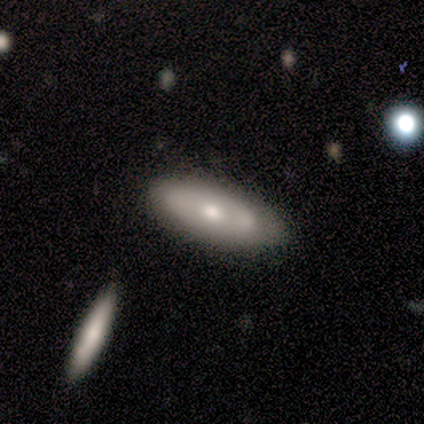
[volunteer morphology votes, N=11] Volunteers were most divided on "merging": none: 60%, minor disturbance: 30%, merger: 10%, major disturbance: 0%. More confident: how rounded — in between (86%); smooth or featured — smooth (64%).